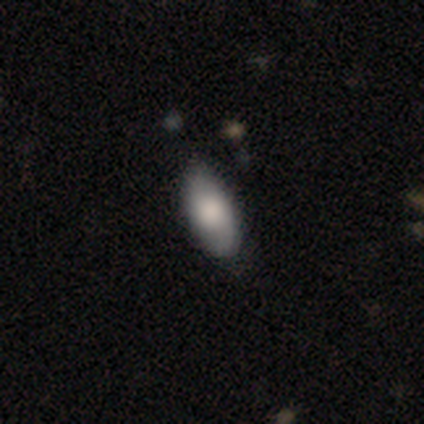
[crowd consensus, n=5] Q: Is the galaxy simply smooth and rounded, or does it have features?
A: smooth — 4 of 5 (80%).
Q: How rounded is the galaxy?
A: in between — 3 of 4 (75%).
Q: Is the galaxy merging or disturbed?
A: none — 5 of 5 (100%).